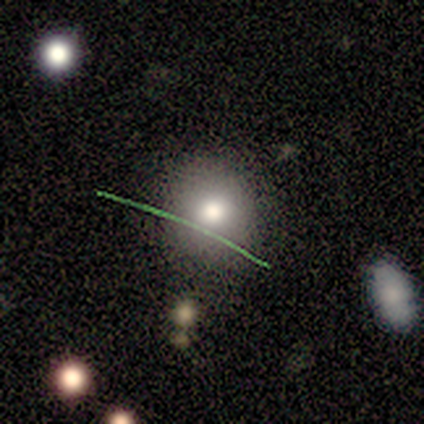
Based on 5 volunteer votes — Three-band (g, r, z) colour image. It shows a smooth galaxy with no disk features (40%, tied with featured or disk) that is round (50%, tied with in between). Merging: none (75%).